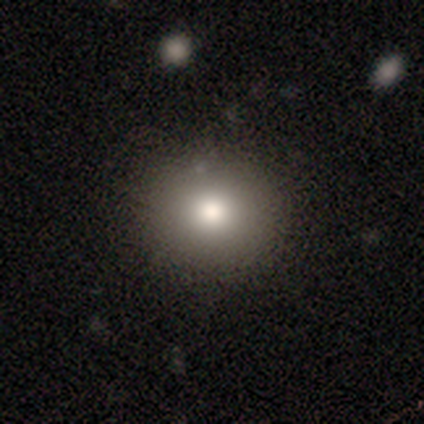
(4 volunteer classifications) Volunteers were most divided on "how rounded": round: 67%, in between: 33%, cigar-shaped: 0%. More confident: merging — none (100%); smooth or featured — smooth (75%).